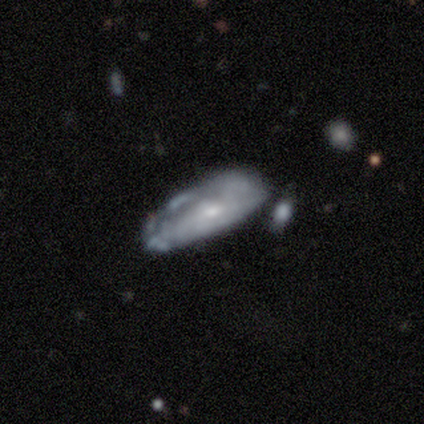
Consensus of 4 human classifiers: smooth_or_featured: featured or disk (p=0.75) [alt: smooth p=0.25]
disk_edge_on: no (p=1.00)
bar: no (p=1.00)
has_spiral_arms: no (p=1.00)
bulge_size: small (p=1.00)
merging: none (p=0.75) [alt: major disturbance p=0.25]